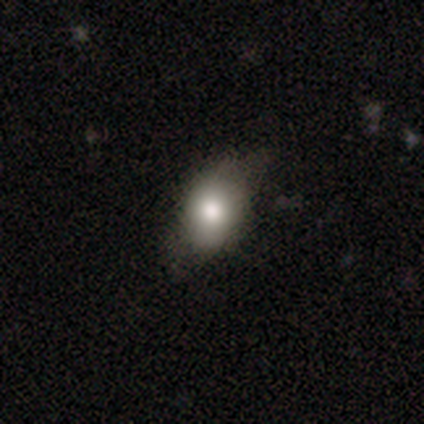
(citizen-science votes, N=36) smooth 72%, featured or disk 19%, star or artifact 8%. Down the decision tree: how rounded — in between (92%); merging — none (58%).